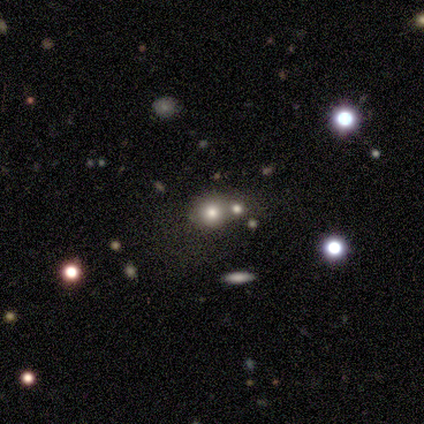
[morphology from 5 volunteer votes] Smooth or featured? 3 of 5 (60%) said smooth. How rounded? 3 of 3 (100%) said round. Merging? 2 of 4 (50%) said none.